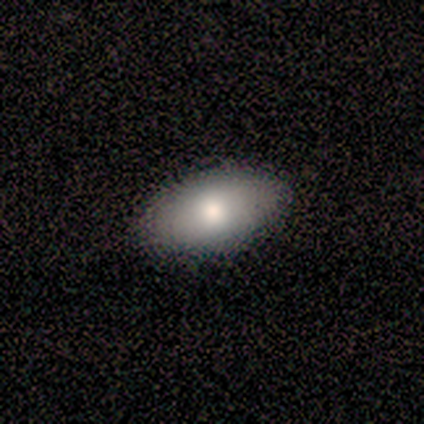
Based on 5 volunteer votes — Smooth or featured? smooth (80%)
How rounded? in between (100%)
Merging? none (100%)